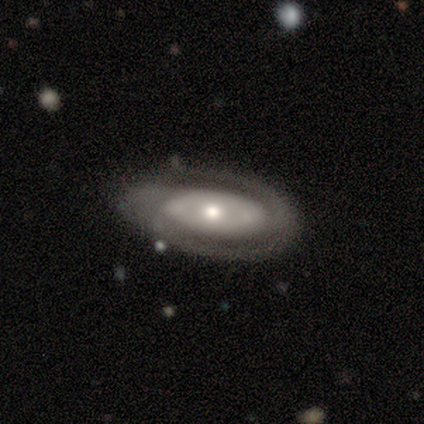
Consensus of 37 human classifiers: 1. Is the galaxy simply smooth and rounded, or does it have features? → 89% featured or disk, 8% smooth, 3% star or artifact.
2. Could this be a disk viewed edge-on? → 85% no, 15% yes.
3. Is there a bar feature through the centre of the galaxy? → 64% no, 21% weak, 14% strong.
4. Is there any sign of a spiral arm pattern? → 89% yes, 11% no.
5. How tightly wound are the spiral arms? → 60% tight, 28% medium, 12% loose.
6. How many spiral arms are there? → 72% 2, 12% can't tell, 8% 1, 8% 3, 0% 4, 0% more than 4.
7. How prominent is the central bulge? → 46% moderate, 43% small, 7% large, 4% dominant, 0% none.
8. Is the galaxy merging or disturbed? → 72% none, 22% minor disturbance, 6% major disturbance, 0% merger.